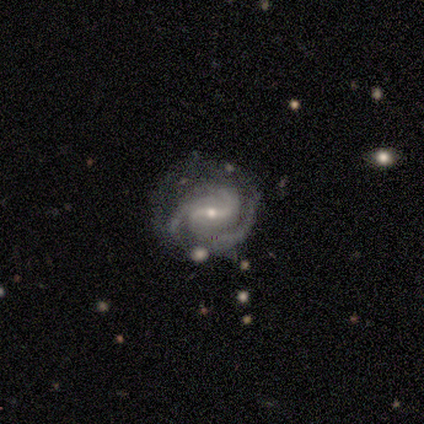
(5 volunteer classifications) Smooth or featured?
  - featured or disk: 100% *
  - smooth: 0%
  - star or artifact: 0%
Edge-on disk?
  - no: 100% *
  - yes: 0%
Bar?
  - weak: 60% *
  - strong: 20%
  - no: 20%
Spiral arms?
  - yes: 100% *
  - no: 0%
Spiral winding?
  - tight: 40% * (tied)
  - medium: 40% * (tied)
  - loose: 20%
Spiral arm count?
  - 3: 100% *
  - 1: 0%
  - 2: 0%
  - 4: 0%
  - more than 4: 0%
  - can't tell: 0%
Bulge size?
  - small: 60% *
  - large: 20%
  - moderate: 20%
  - dominant: 0%
  - none: 0%
Merging?
  - none: 80% *
  - minor disturbance: 20%
  - major disturbance: 0%
  - merger: 0%